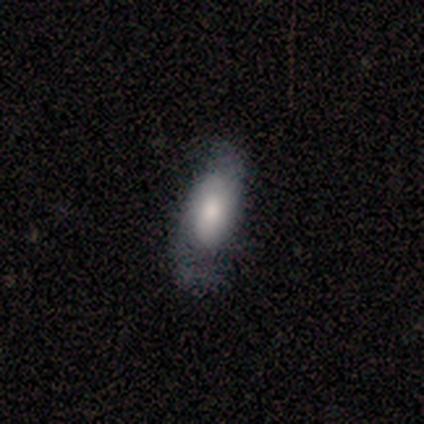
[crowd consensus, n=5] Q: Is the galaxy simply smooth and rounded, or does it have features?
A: featured or disk — 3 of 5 (60%).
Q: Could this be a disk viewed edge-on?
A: no — 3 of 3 (100%).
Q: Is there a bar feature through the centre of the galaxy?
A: no — 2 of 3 (67%).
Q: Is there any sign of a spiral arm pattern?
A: yes — 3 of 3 (100%).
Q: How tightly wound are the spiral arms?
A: loose — 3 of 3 (100%).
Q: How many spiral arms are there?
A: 2 — 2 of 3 (67%).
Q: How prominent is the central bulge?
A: dominant — 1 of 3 (33%, tied with moderate and small).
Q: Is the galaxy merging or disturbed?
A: none — 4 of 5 (80%).